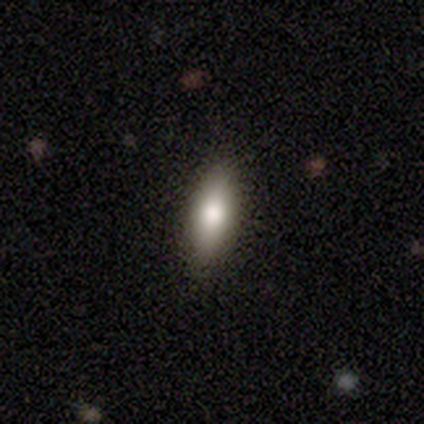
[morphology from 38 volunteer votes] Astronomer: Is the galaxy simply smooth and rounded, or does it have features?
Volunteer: smooth — 74%.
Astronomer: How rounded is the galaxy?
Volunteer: in between — 50% (runner-up: cigar-shaped, 43%).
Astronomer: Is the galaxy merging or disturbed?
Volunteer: none — 83%.